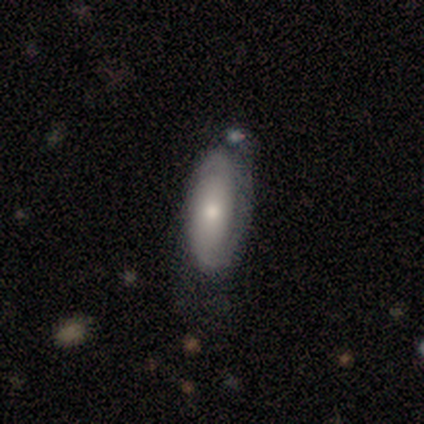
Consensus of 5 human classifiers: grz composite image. It shows a featured or disk galaxy (60%) with no bar (67%), 2 (67%) tight (33%, tied with medium and loose) spiral arms (100%) and a moderate central bulge (67%). Merging: none (40%, tied with major disturbance).